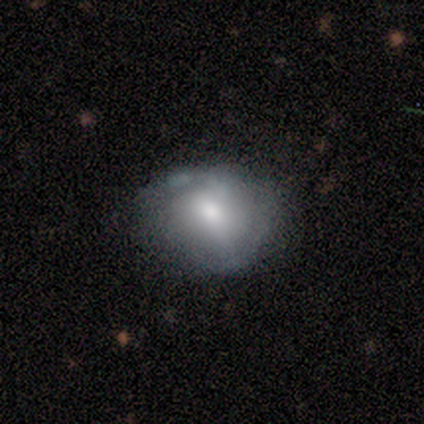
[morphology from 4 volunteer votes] smooth 75%, featured or disk 25%, star or artifact 0%. Down the decision tree: how rounded — round (67%); merging — none (100%).